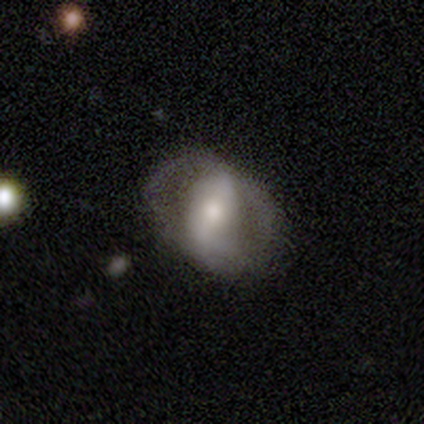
Smooth or featured?
  - featured or disk: 100% *
  - smooth: 0%
  - star or artifact: 0%
Edge-on disk?
  - no: 100% *
  - yes: 0%
Bar?
  - weak: 50% * (tied)
  - no: 50% * (tied)
  - strong: 0%
Spiral arms?
  - no: 100% *
  - yes: 0%
Bulge size?
  - moderate: 50% * (tied)
  - none: 50% * (tied)
  - dominant: 0%
  - large: 0%
  - small: 0%
Merging?
  - none: 100% *
  - minor disturbance: 0%
  - major disturbance: 0%
  - merger: 0%